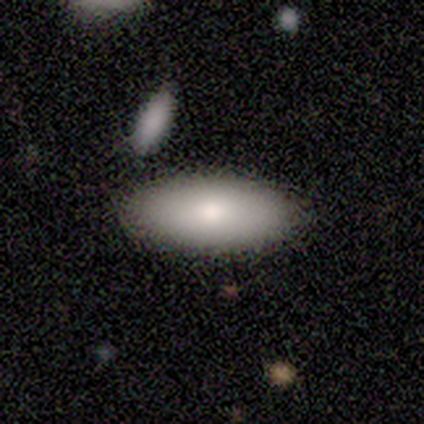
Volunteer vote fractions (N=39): smooth 90%, featured or disk 5%, star or artifact 5%. Down the decision tree: how rounded — in between (94%); merging — none (86%).